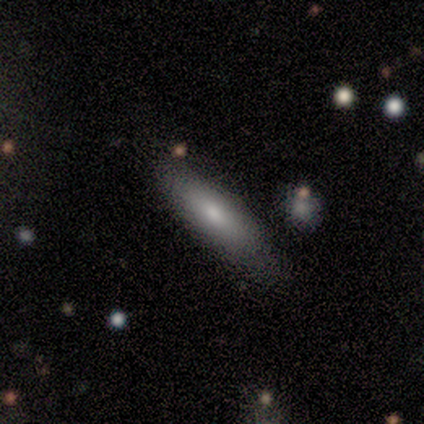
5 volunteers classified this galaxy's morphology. This is clearly a smooth galaxy (80%). How rounded: likely cigar-shaped (75%). Merging: clearly none (100%).